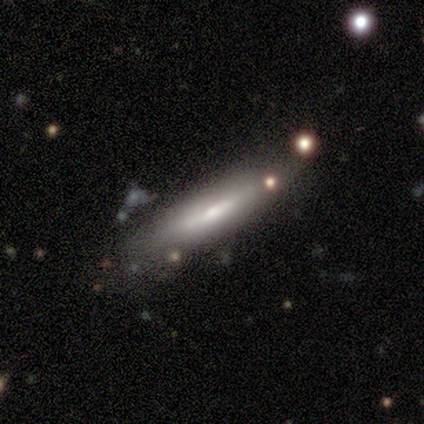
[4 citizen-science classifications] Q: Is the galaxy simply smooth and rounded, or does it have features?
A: smooth — 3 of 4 (75%).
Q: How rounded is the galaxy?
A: cigar-shaped — 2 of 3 (67%).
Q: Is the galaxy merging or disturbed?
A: none — 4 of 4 (100%).